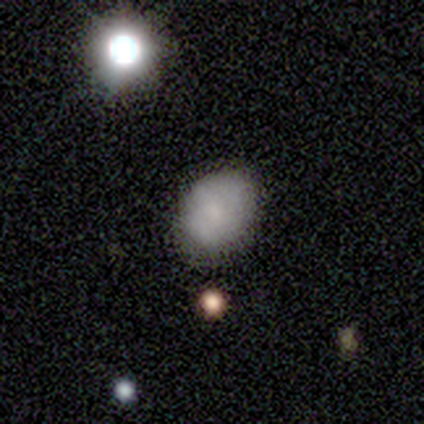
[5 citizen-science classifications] smooth 80%, featured or disk 20%, star or artifact 0%. Down the decision tree: how rounded — in between (75%); merging — none (80%).